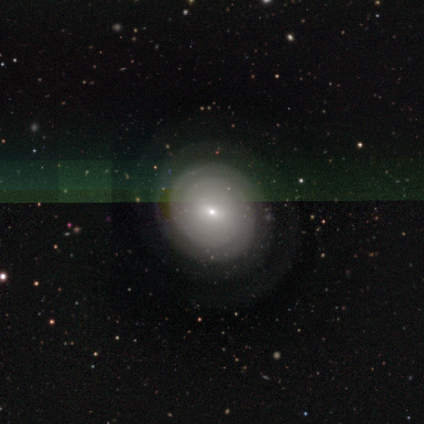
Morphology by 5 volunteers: Volunteers were most divided on "spiral arm count" (2-way tie): 2: 50%, can't tell: 50%, 1: 0%, 3: 0%, 4: 0%, more than 4: 0%. More confident: edge-on disk — no (100%); spiral arms — yes (100%); smooth or featured — featured or disk (80%); merging — none (80%); bar — no (75%); spiral winding — tight (75%); bulge size — small (75%).